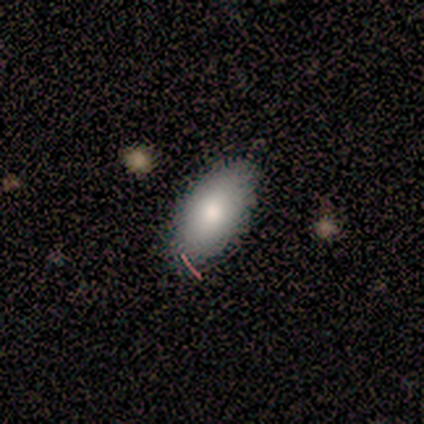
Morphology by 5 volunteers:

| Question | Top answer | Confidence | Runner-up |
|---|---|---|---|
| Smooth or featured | smooth | 40% | tied: featured or disk (40%) |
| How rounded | in between | 50% | tied: cigar-shaped (50%) |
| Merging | none | 75% | major disturbance (25%) |